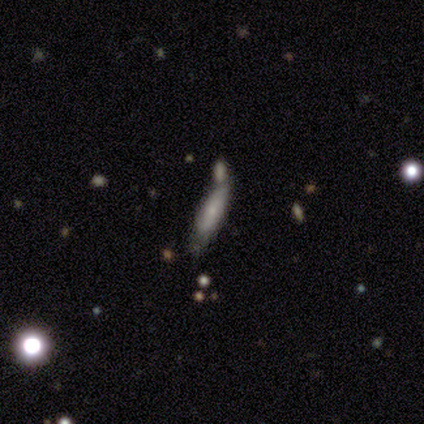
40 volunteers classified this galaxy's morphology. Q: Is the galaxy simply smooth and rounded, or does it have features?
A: smooth — 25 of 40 (62%).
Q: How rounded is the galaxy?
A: cigar-shaped — 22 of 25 (88%).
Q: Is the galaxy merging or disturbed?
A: none — 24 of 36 (67%).